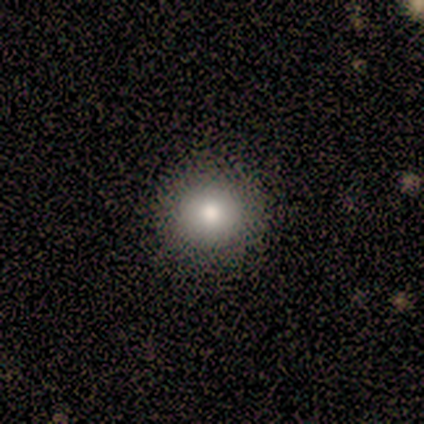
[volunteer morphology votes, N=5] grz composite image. It shows a smooth galaxy with no disk features (100%) that is round (100%). Merging: none (100%).